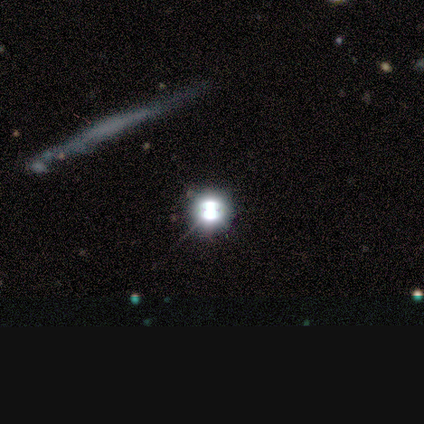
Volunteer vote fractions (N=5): smooth_or_featured: star or artifact (p=0.80) [alt: smooth p=0.20]